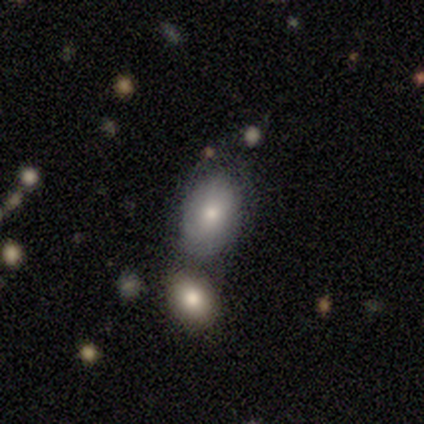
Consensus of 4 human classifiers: This is likely a smooth galaxy (75%). How rounded: clearly in between (100%). Merging: likely none (67%).